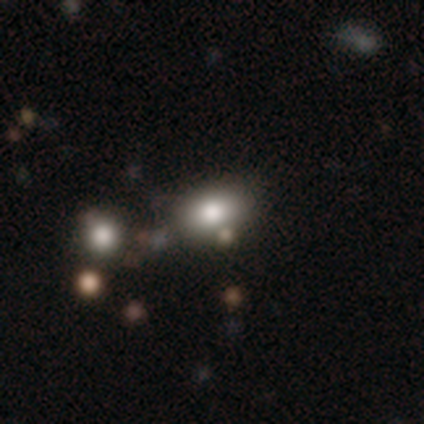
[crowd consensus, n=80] smooth_or_featured: smooth (p=0.72) [alt: star or artifact p=0.16]
how_rounded: in between (p=0.76) [alt: round p=0.22]
merging: none (p=0.33) [alt: merger p=0.25]